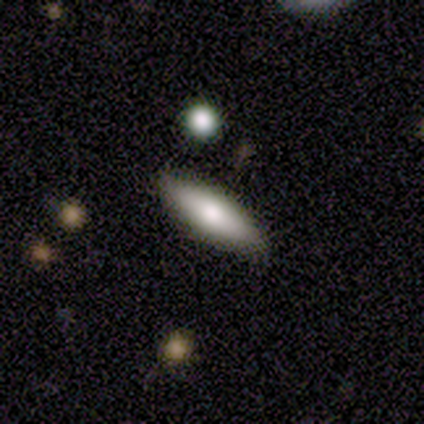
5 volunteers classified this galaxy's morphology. A smooth galaxy with no disk features (60%) that is cigar-shaped (100%). Merging: none (80%).